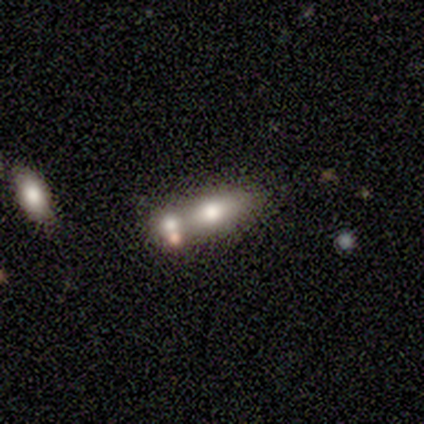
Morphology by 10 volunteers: type=smooth (70%); roundness=in between (43%, tied with cigar-shaped); merging=merger (67%).